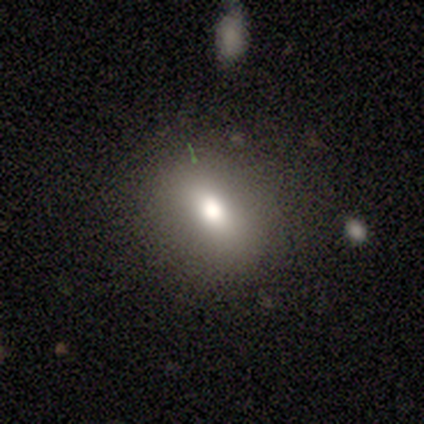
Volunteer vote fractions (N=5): Morphology: type=smooth (80%); roundness=round (75%); merging=none (80%).